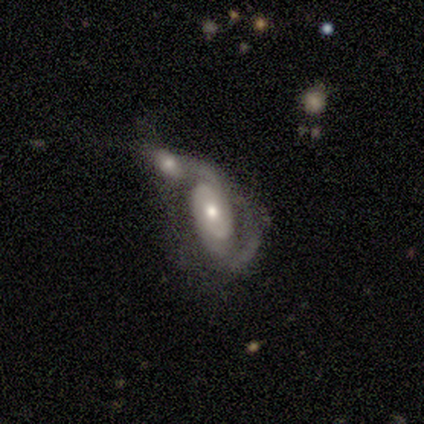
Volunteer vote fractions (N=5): This is clearly a featured or disk galaxy (80%). It is clearly not viewed edge-on (100%). Bar: clearly no (100%). Spiral arm pattern: likely yes (75%). Spiral arm count: likely 2 (67%). Spiral winding: likely tight (67%). Central bulge: possibly large (50%). Merging: likely merger (60%).